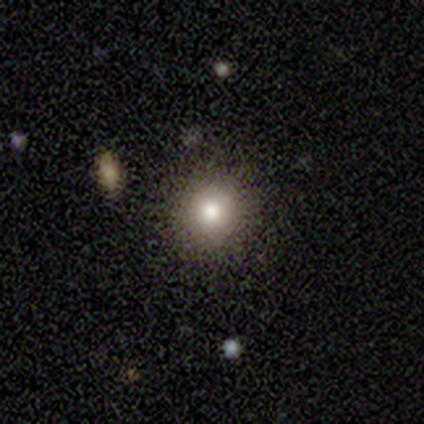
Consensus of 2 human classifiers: smooth 50% (tied), featured or disk 50% (tied), star or artifact 0%. Down the decision tree: how rounded — round (100%); merging — none (100%).